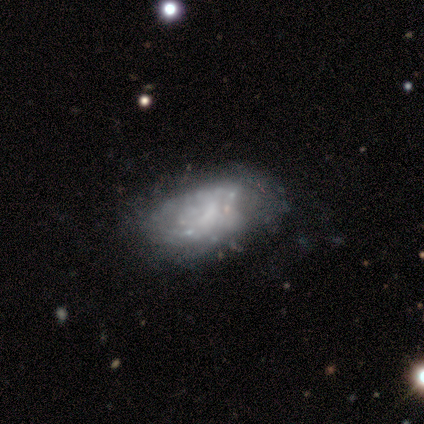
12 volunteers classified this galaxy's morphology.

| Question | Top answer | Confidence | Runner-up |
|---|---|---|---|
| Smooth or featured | featured or disk | 75% | smooth (25%) |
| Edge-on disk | no | 89% | yes (11%) |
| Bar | no | 75% | weak (25%) |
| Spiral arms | no | 88% | yes (12%) |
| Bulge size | none | 75% | small (25%) |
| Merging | none | 42% | minor disturbance (25%) |